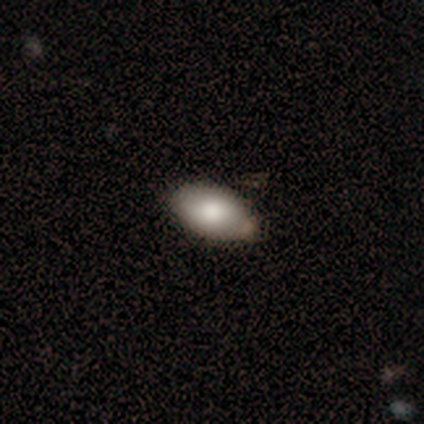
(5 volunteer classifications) Morphology: type=smooth (100%); roundness=in between (80%); merging=none (60%).